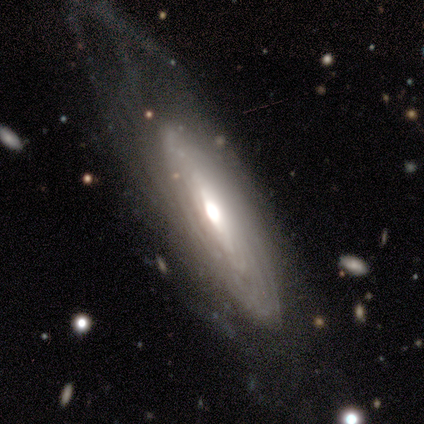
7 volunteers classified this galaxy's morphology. Smooth or featured?
  - featured or disk: 86% *
  - smooth: 14%
  - star or artifact: 0%
Edge-on disk?
  - no: 67% *
  - yes: 33%
Bar?
  - weak: 50% * (tied)
  - no: 50% * (tied)
  - strong: 0%
Spiral arms?
  - yes: 75% *
  - no: 25%
Spiral winding?
  - tight: 100% *
  - medium: 0%
  - loose: 0%
Spiral arm count?
  - can't tell: 67% *
  - more than 4: 33%
  - 1: 0%
  - 2: 0%
  - 3: 0%
  - 4: 0%
Bulge size?
  - large: 50% * (tied)
  - moderate: 50% * (tied)
  - dominant: 0%
  - small: 0%
  - none: 0%
Merging?
  - major disturbance: 43% *
  - none: 29%
  - minor disturbance: 29%
  - merger: 0%